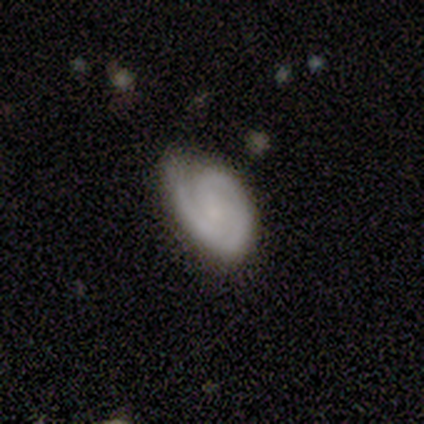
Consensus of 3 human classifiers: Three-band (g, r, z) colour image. It shows a featured or disk galaxy (100%) with no bar (67%), 2 (67%) tight (100%) spiral arms (100%) and a small central bulge (100%). Merging: none (67%).